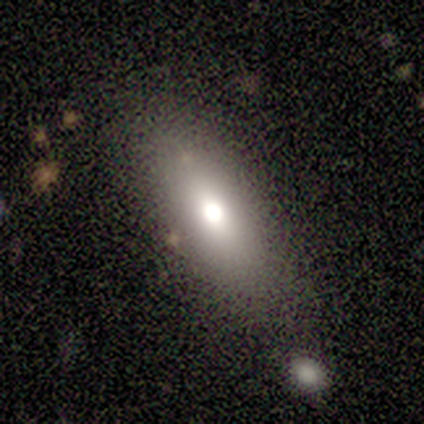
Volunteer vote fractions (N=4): Morphology: type=smooth (75%); roundness=in between (67%); merging=none (75%).